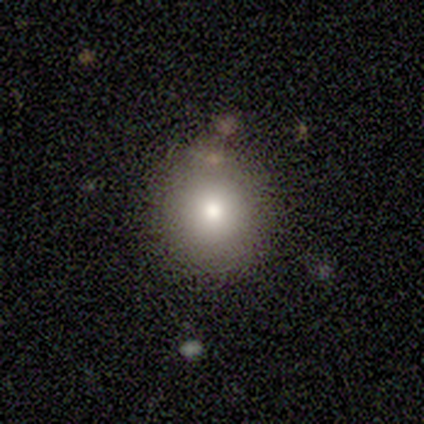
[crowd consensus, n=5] Smooth or featured? smooth (100%)
How rounded? round (100%)
Merging? none (80%)